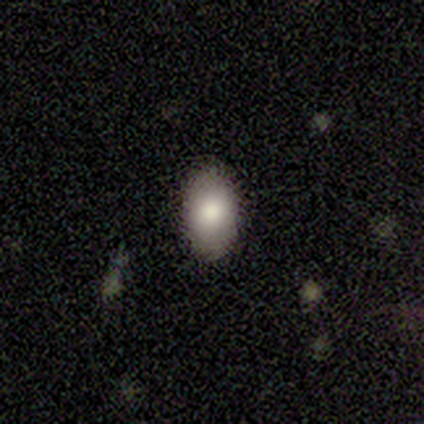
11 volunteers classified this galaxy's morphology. Smooth or featured? smooth (100%)
How rounded? in between (82%)
Merging? none (91%)